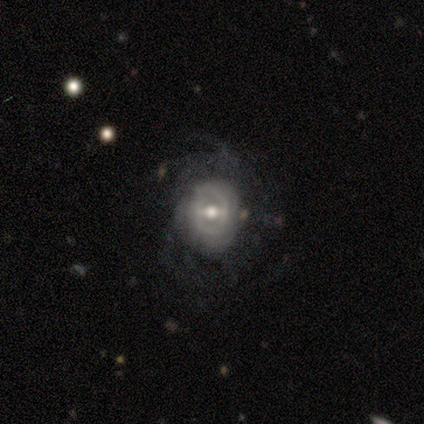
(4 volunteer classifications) Morphology: type=featured or disk (75%); edge-on=no (100%); bar=weak (67%); spiral arms=yes (67%); winding=tight (100%); arm count=can't tell (100%); bulge=moderate (67%); merging=none (67%).